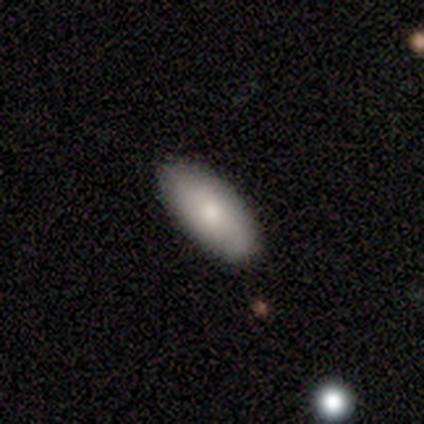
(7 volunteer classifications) smooth 100%, featured or disk 0%, star or artifact 0%. Down the decision tree: how rounded — in between (100%); merging — none (100%).